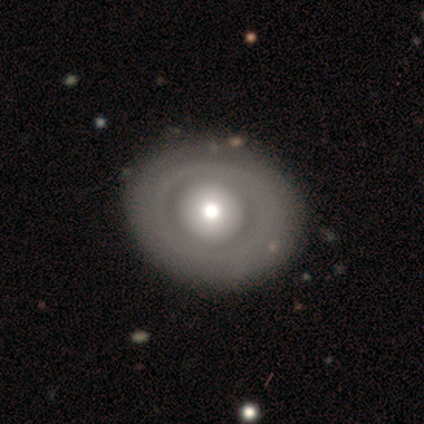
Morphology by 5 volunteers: smooth_or_featured: featured or disk (p=0.80) [alt: smooth p=0.20]
disk_edge_on: no (p=1.00)
bar: no (p=1.00)
has_spiral_arms: yes (p=0.50) [tied with: no p=0.50]
spiral_winding: tight (p=1.00)
spiral_arm_count: can't tell (p=1.00)
bulge_size: large (p=0.50) [tied with: moderate p=0.50]
merging: none (p=1.00)